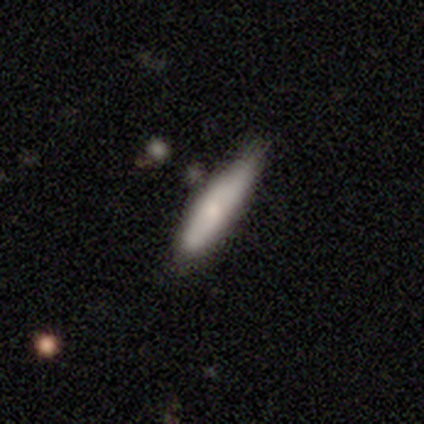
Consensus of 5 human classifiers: This appears to be a smooth galaxy with no disk features (100%) that is cigar-shaped (80%). Merging: none (80%).